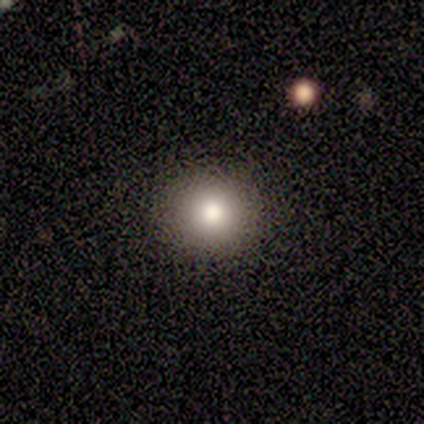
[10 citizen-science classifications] Overall: smooth (80%). How rounded: round (75%). Merging: none (89%).